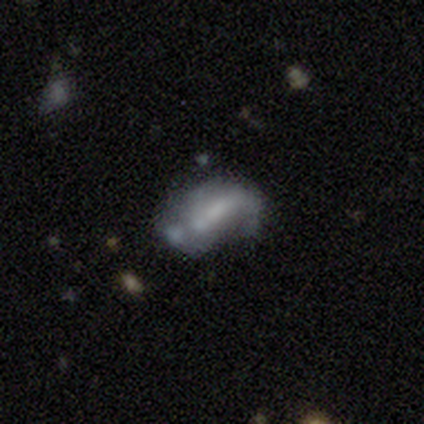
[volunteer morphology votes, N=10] type=featured or disk (50%); edge-on=no (100%); bar=weak (60%); spiral arms=no (60%); bulge=none (80%); merging=minor disturbance (50%).